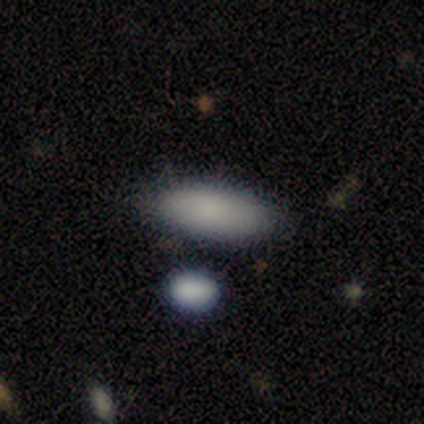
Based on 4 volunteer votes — Volunteers were most divided on "smooth or featured": smooth: 75%, star or artifact: 25%, featured or disk: 0%. More confident: how rounded — in between (100%); merging — none (100%).